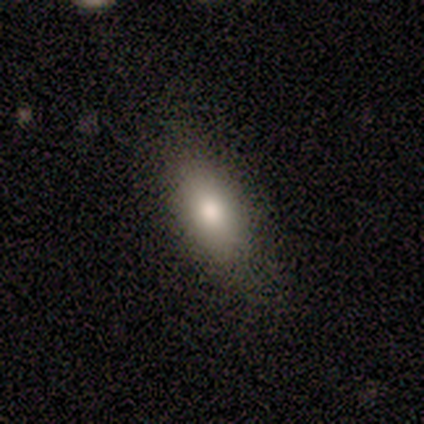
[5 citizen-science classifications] smooth-or-featured: smooth: 100% | featured or disk: 0% | star or artifact: 0%
  how-rounded: in between: 100% | round: 0% | cigar-shaped: 0%
  merging: none: 100% | minor disturbance: 0% | major disturbance: 0% | merger: 0%